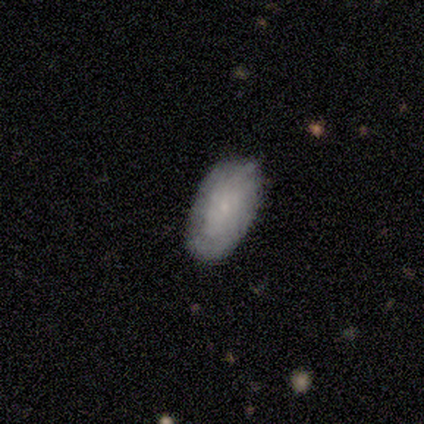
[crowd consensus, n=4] Morphology: type=smooth (75%); roundness=in between (100%); merging=none (67%).